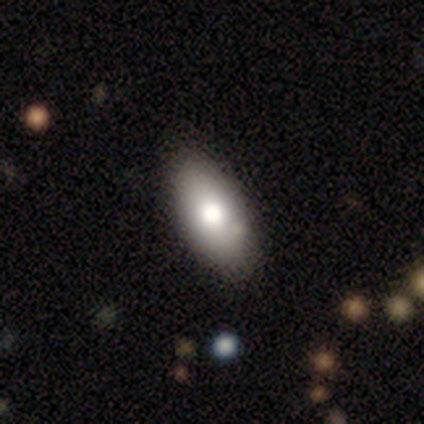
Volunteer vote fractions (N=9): Smooth or featured?
  - smooth: 78% *
  - featured or disk: 22%
  - star or artifact: 0%
How rounded?
  - in between: 86% *
  - cigar-shaped: 14%
  - round: 0%
Merging?
  - none: 78% *
  - minor disturbance: 22%
  - major disturbance: 0%
  - merger: 0%